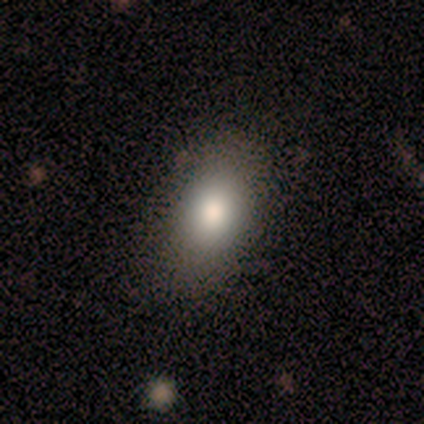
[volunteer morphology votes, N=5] Q: Smooth or featured?
A: smooth (40%); tied with: star or artifact (40%)
Q: How rounded?
A: in between (100%)
Q: Merging?
A: none (100%)